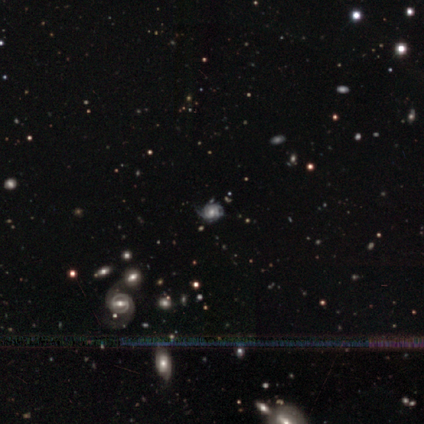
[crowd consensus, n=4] Smooth or featured? 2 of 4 (50%, tied with star or artifact) said featured or disk. Edge-on disk? 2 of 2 (100%) said no. Bar? 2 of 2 (100%) said no. Spiral arms? 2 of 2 (100%) said yes. Spiral winding? 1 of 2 (50%, tied with medium) said tight. Spiral arm count? 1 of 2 (50%, tied with can't tell) said 3. Bulge size? 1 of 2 (50%, tied with small) said moderate. Merging? 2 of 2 (100%) said none.